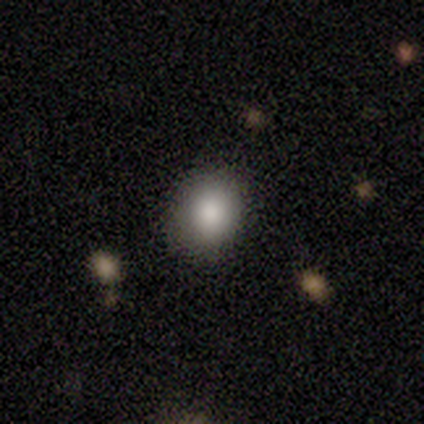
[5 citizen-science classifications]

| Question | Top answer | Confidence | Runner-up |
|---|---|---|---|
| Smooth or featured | smooth | 80% | featured or disk (20%) |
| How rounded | in between | 75% | round (25%) |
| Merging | none | 80% | minor disturbance (20%) |